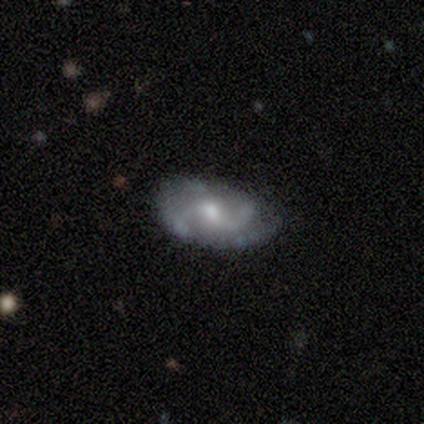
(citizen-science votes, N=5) featured or disk 80%, smooth 20%, star or artifact 0%. Down the decision tree: edge-on disk — no (100%); bar — weak (50%, tied with no); spiral arms — yes (100%); spiral arm count — 2 (25%, tied with 3, 4 and can't tell); spiral winding — medium (75%); bulge size — moderate (50%, tied with small); merging — none (80%).